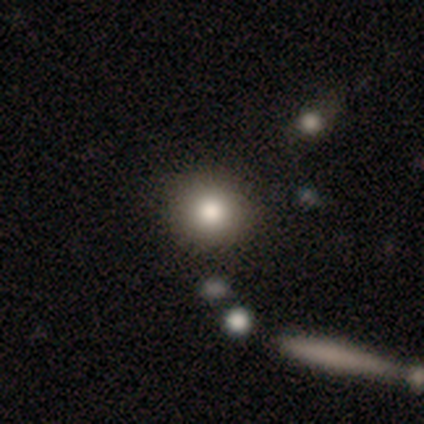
Smooth or featured?
  - smooth: 82% *
  - featured or disk: 9%
  - star or artifact: 9%
How rounded?
  - round: 100% *
  - in between: 0%
  - cigar-shaped: 0%
Merging?
  - none: 85% *
  - minor disturbance: 15%
  - major disturbance: 0%
  - merger: 0%